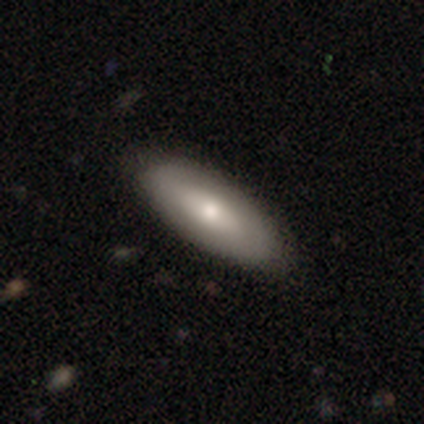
Q: Smooth or featured?
A: smooth (71%); runner-up: featured or disk (26%)
Q: How rounded?
A: in between (80%); runner-up: cigar-shaped (20%)
Q: Merging?
A: none (88%); runner-up: minor disturbance (8%)